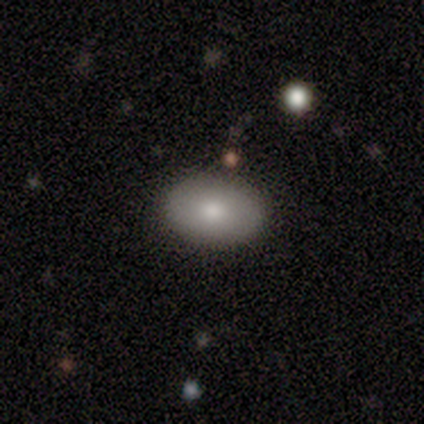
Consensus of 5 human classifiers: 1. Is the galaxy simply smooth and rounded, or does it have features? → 80% smooth, 20% featured or disk, 0% star or artifact.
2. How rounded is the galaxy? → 100% in between, 0% round, 0% cigar-shaped.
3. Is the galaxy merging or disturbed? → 80% none, 20% minor disturbance, 0% major disturbance, 0% merger.